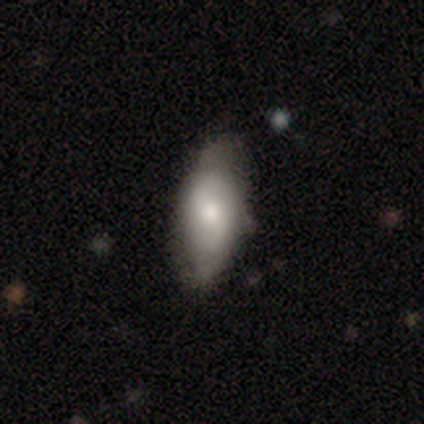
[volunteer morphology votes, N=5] Q: Smooth or featured?
A: smooth (40%); tied with: featured or disk (40%)
Q: How rounded?
A: in between (100%)
Q: Merging?
A: none (50%); runner-up: minor disturbance (25%)